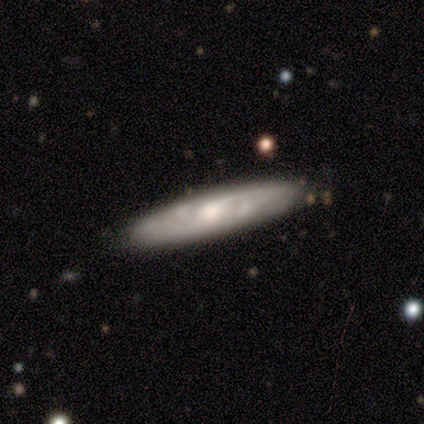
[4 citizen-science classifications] Volunteers were most divided on "bar": weak: 67%, no: 33%, strong: 0%. More confident: edge-on disk — no (100%); spiral arms — yes (100%); spiral arm count — 2 (100%); smooth or featured — featured or disk (75%); merging — none (75%); spiral winding — medium (67%); bulge size — moderate (67%).